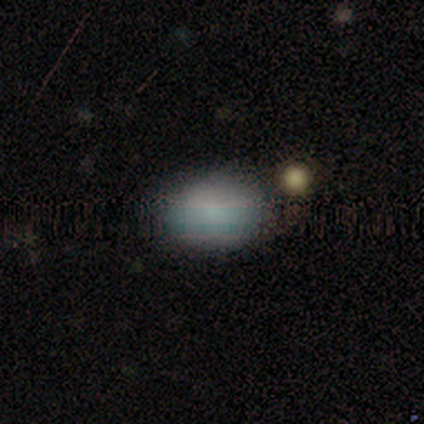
This appears to be a smooth galaxy with no disk features (100%) that is in between round and cigar-shaped (83%). Merging: none (100%).